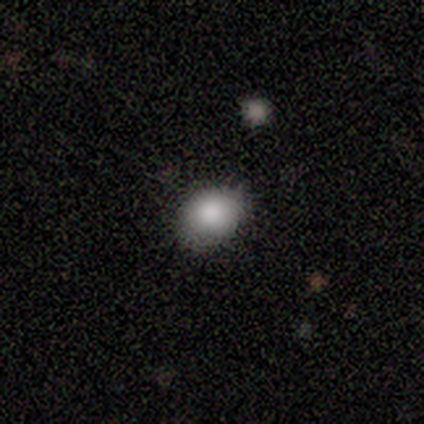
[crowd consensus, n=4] Smooth or featured? smooth (100%)
How rounded? round (50%, tied with in between)
Merging? none (100%)